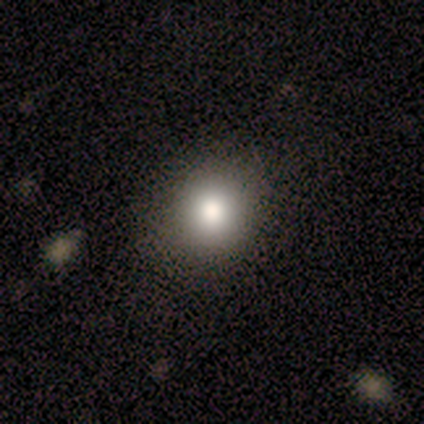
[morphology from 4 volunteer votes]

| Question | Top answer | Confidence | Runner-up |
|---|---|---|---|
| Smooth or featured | smooth | 100% | — |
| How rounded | round | 100% | — |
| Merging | none | 100% | — |